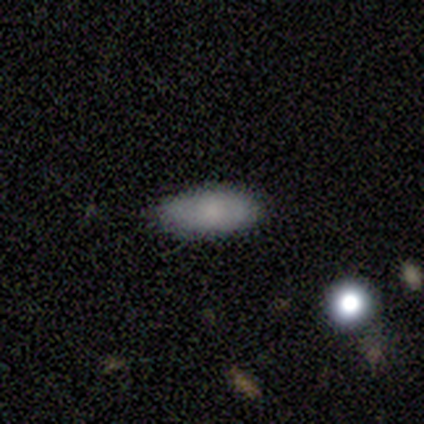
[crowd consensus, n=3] Smooth or featured? 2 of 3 (67%) said smooth. How rounded? 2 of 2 (100%) said in between. Merging? 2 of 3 (67%) said none.